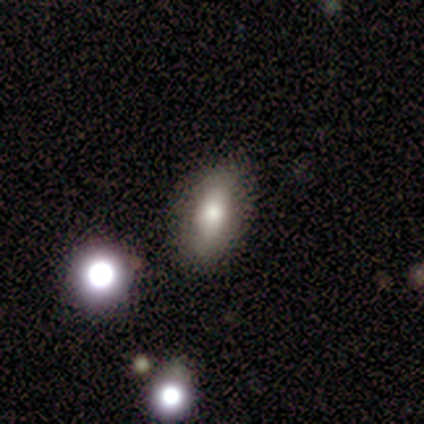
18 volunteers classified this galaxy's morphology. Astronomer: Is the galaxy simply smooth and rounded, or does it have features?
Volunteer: smooth — 78%.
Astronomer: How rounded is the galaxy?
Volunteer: in between — 79%.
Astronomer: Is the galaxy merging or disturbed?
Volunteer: none — 75%.